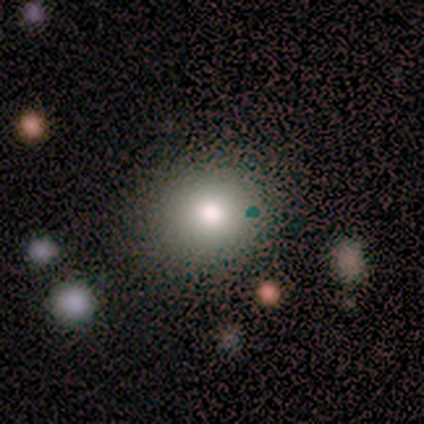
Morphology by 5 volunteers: smooth-or-featured: smooth: 100% | featured or disk: 0% | star or artifact: 0%
  how-rounded: round: 60% | in between: 40% | cigar-shaped: 0%
  merging: none: 100% | minor disturbance: 0% | major disturbance: 0% | merger: 0%